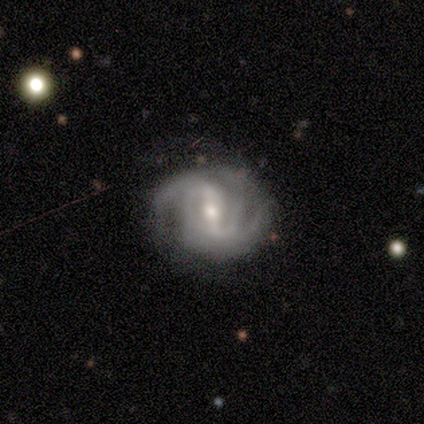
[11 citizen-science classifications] Smooth or featured?
  - featured or disk: 100% *
  - smooth: 0%
  - star or artifact: 0%
Edge-on disk?
  - no: 100% *
  - yes: 0%
Bar?
  - weak: 55% *
  - strong: 27%
  - no: 18%
Spiral arms?
  - yes: 91% *
  - no: 9%
Spiral winding?
  - tight: 40% *
  - medium: 30%
  - loose: 30%
Spiral arm count?
  - 2: 40% * (tied)
  - 3: 40% * (tied)
  - 1: 10%
  - can't tell: 10%
  - 4: 0%
  - more than 4: 0%
Bulge size?
  - small: 64% *
  - moderate: 36%
  - dominant: 0%
  - large: 0%
  - none: 0%
Merging?
  - none: 64% *
  - minor disturbance: 27%
  - merger: 9%
  - major disturbance: 0%